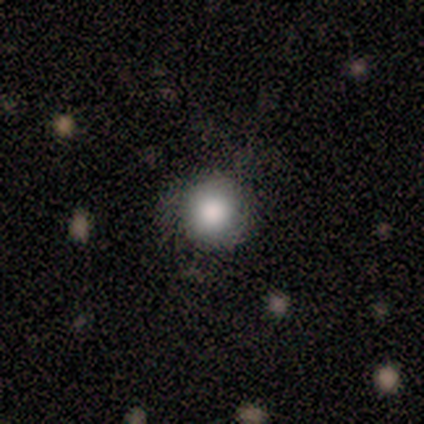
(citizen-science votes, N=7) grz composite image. It shows a smooth galaxy with no disk features (100%) that is round (100%). Merging: none (100%).